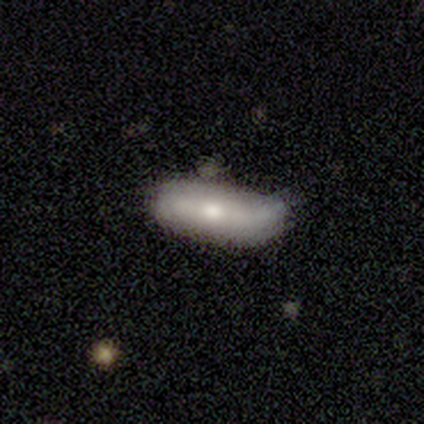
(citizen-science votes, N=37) smooth 51%, featured or disk 43%, star or artifact 5%. Down the decision tree: how rounded — in between (68%); merging — none (57%).